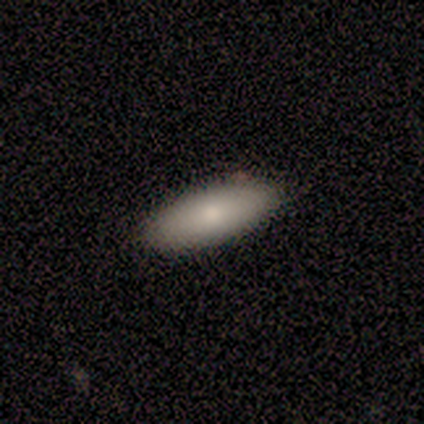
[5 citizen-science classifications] Smooth or featured? smooth (80%)
How rounded? in between (75%)
Merging? none (80%)